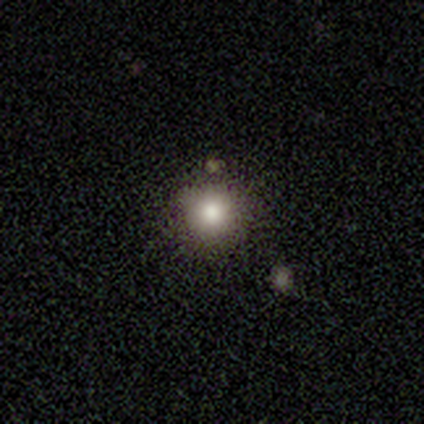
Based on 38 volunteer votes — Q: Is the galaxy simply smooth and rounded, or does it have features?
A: smooth — 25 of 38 (66%).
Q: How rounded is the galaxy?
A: round — 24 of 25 (96%).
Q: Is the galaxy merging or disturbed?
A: none — 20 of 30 (67%).